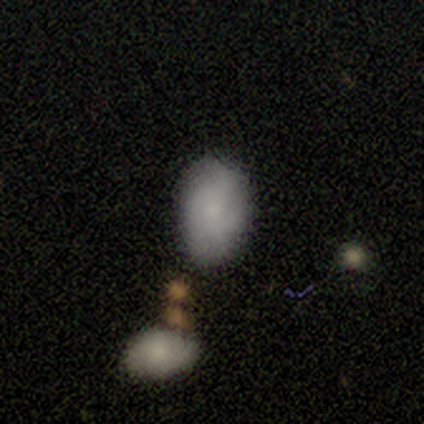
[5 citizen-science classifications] featured or disk 60%, smooth 40%, star or artifact 0%. Down the decision tree: edge-on disk — no (67%); bar — weak (50%, tied with no); spiral arms — yes (50%, tied with no); spiral arm count — 3 (100%); spiral winding — tight (100%); bulge size — small (50%, tied with none); merging — none (40%, tied with minor disturbance).